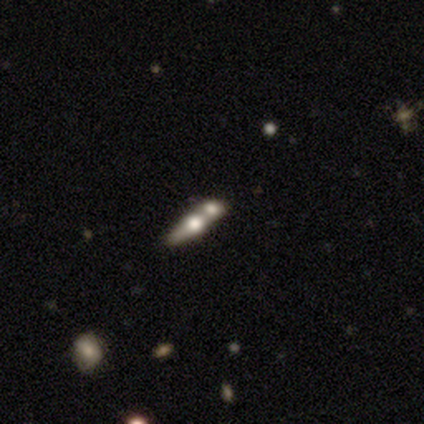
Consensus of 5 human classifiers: This is likely a smooth galaxy (60%). How rounded: likely in between (67%). Merging: likely merger (60%).